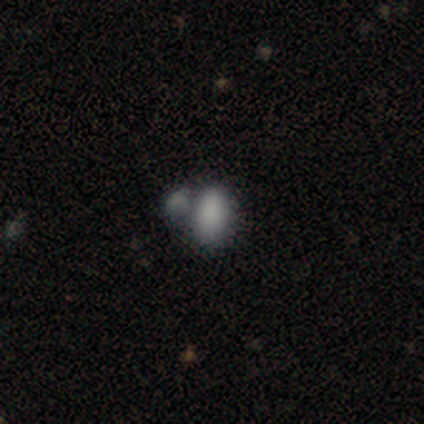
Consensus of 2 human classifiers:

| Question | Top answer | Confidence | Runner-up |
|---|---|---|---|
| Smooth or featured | smooth | 100% | — |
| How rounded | in between | 100% | — |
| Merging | merger | 100% | — |